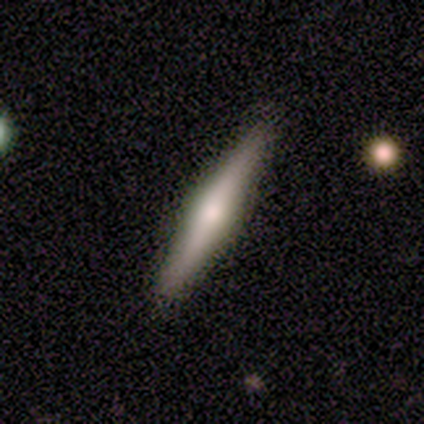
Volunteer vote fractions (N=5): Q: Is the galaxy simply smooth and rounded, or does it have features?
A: featured or disk — 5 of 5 (100%).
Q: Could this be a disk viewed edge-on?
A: yes — 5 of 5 (100%).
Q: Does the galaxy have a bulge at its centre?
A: rounded — 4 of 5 (80%).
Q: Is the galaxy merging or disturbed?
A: none — 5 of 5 (100%).